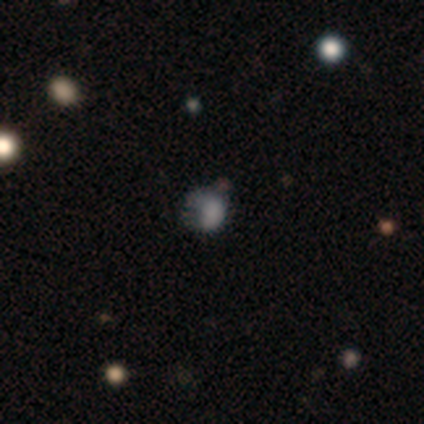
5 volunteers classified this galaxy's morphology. Smooth or featured: smooth — 60% (featured or disk — 20%)
How rounded: in between — 67% (round — 33%)
Merging: major disturbance — 50% (none — 25%)